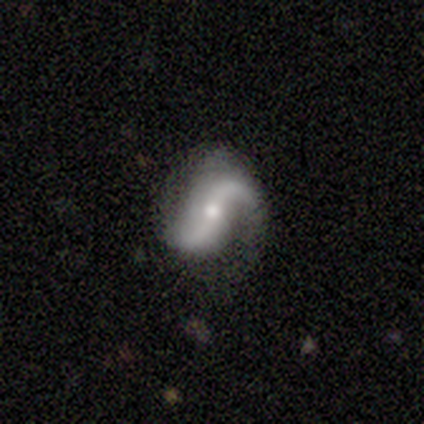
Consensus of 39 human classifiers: Morphology: type=featured or disk (97%); edge-on=no (97%); bar=no (49%); spiral arms=yes (97%); winding=loose (72%); arm count=2 (100%); bulge=moderate (49%); merging=none (74%).